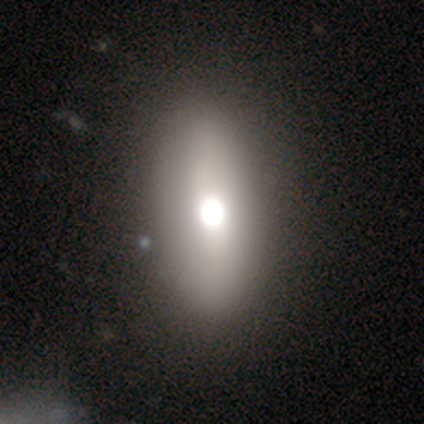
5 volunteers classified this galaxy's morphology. A smooth galaxy with no disk features (60%) that is in between round and cigar-shaped (100%). Merging: none (80%).